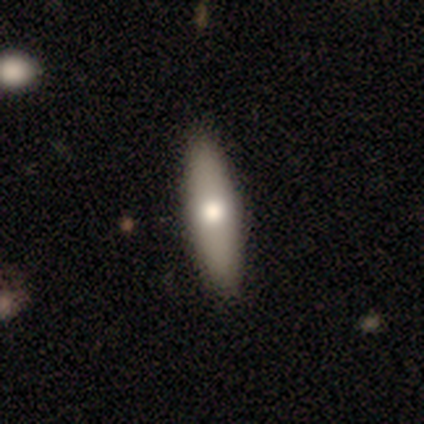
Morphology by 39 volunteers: Smooth or featured? 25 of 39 (64%) said smooth. How rounded? 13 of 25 (52%) said cigar-shaped. Merging? 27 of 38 (71%) said none.